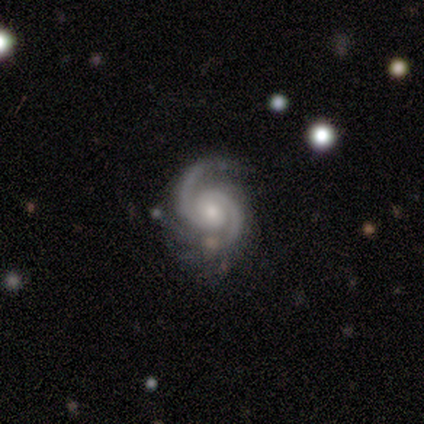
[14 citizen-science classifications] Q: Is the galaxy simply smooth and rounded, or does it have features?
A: featured or disk — 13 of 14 (93%).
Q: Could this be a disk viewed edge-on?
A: no — 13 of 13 (100%).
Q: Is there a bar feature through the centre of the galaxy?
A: no — 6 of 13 (46%).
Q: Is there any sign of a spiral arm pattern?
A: yes — 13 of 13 (100%).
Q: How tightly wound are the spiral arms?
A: medium — 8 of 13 (62%).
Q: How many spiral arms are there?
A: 2 — 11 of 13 (85%).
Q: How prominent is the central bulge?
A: moderate — 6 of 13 (46%, tied with small).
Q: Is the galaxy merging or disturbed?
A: none — 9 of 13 (69%).